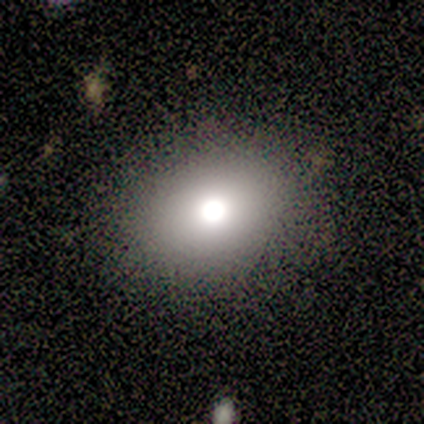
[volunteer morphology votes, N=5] type=smooth (60%); roundness=round (67%); merging=none (50%).